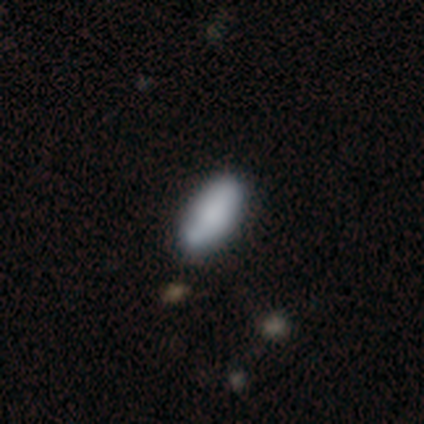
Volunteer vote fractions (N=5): smooth-or-featured: smooth: 60% | featured or disk: 20% | star or artifact: 20%
  how-rounded: in between: 67% | cigar-shaped: 33% | round: 0%
  merging: none: 50% (tied) | minor disturbance: 50% (tied) | major disturbance: 0% | merger: 0%